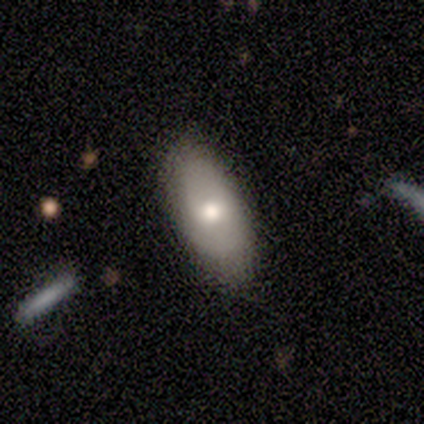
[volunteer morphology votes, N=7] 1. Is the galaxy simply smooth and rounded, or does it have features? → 86% smooth, 14% featured or disk, 0% star or artifact.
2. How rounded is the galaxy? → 100% in between, 0% round, 0% cigar-shaped.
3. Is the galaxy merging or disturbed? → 86% none, 14% minor disturbance, 0% major disturbance, 0% merger.